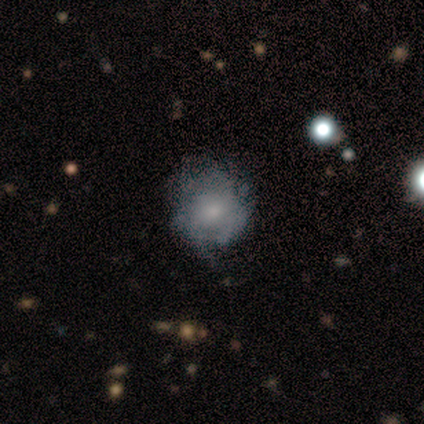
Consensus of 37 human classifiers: A featured or disk galaxy (59%) with no bar (77%), tight (43%) spiral arms (64%) and a small central bulge (77%).

Vote fractions:
- Smooth or featured? featured or disk: 59% / smooth: 32% / star or artifact: 8%
- Edge-on disk? no: 100% / yes: 0%
- Bar? no: 77% / weak: 23% / strong: 0%
- Spiral arms? yes: 64% / no: 36%
- Spiral winding? tight: 43% / medium: 29% / loose: 29%
- Spiral arm count? can't tell: 50% / 1: 21% / 2: 14% / 3: 7% / more than 4: 7% / 4: 0%
- Bulge size? small: 77% / moderate: 14% / none: 9% / dominant: 0% / large: 0%
- Merging? none: 56% / minor disturbance: 26% / major disturbance: 15% / merger: 3%